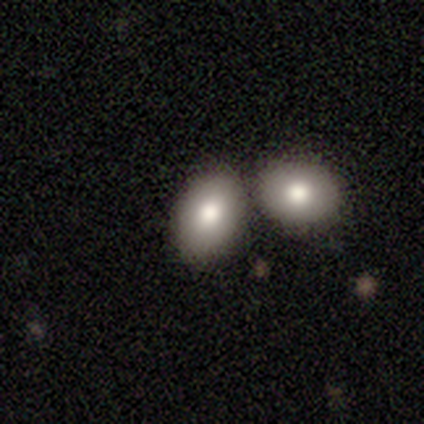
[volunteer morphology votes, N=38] This is clearly a smooth galaxy (82%). How rounded: likely in between (77%). Merging: possibly merger (46%).